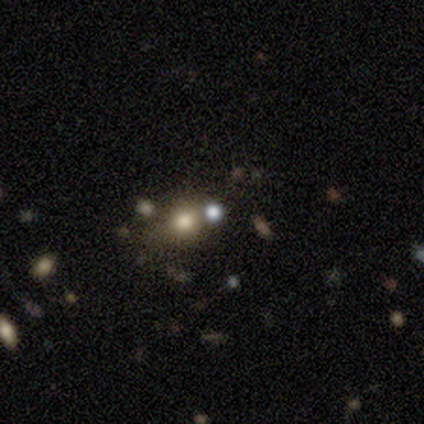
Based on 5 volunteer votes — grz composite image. It shows a smooth galaxy with no disk features (100%) that is round (80%). Merging: none (80%).